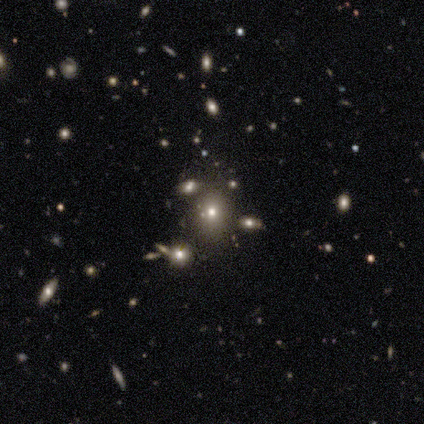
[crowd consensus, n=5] smooth 80%, star or artifact 20%, featured or disk 0%. Down the decision tree: how rounded — round (50%, tied with in between); merging — none (100%).